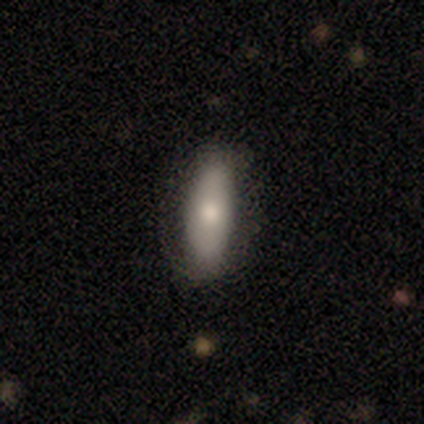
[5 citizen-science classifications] Q: Smooth or featured?
A: smooth (100%)
Q: How rounded?
A: in between (80%); runner-up: cigar-shaped (20%)
Q: Merging?
A: none (60%); runner-up: minor disturbance (20%)